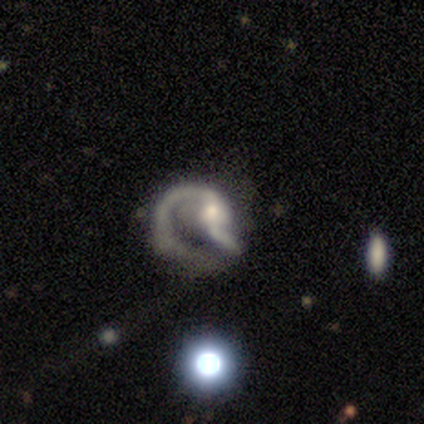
Overall: featured or disk (100%). Edge-on disk: no (100%). Bar: no (60%; weak 40%). Spiral arms: yes (80%). Spiral arm count: 1 (50%, tied with 2). Spiral winding: loose (75%). Bulge size: small (60%; moderate 40%). Merging: major disturbance (80%).